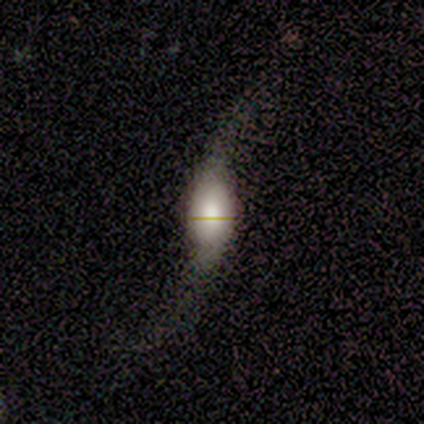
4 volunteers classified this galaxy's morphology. Smooth or featured?
  - featured or disk: 50% *
  - smooth: 25%
  - star or artifact: 25%
Edge-on disk?
  - no: 100% *
  - yes: 0%
Bar?
  - weak: 100% *
  - strong: 0%
  - no: 0%
Spiral arms?
  - yes: 50% * (tied)
  - no: 50% * (tied)
Spiral winding?
  - medium: 100% *
  - tight: 0%
  - loose: 0%
Spiral arm count?
  - 2: 100% *
  - 1: 0%
  - 3: 0%
  - 4: 0%
  - more than 4: 0%
  - can't tell: 0%
Bulge size?
  - large: 50% * (tied)
  - small: 50% * (tied)
  - dominant: 0%
  - moderate: 0%
  - none: 0%
Merging?
  - major disturbance: 67% *
  - minor disturbance: 33%
  - none: 0%
  - merger: 0%